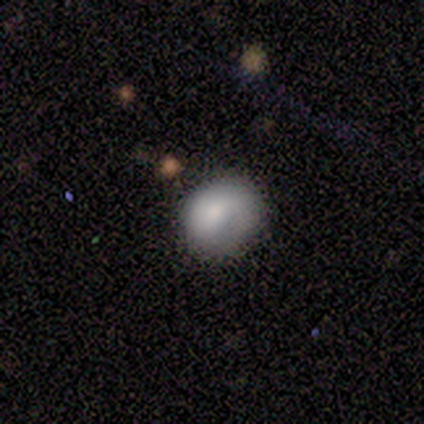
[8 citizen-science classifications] Smooth or featured: smooth — 88% (featured or disk — 12%)
How rounded: round — 57% (in between — 43%)
Merging: none — 62% (major disturbance — 38%)